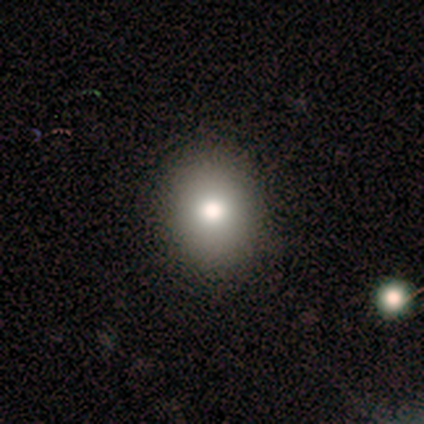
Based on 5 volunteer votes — Volunteers were most divided on "how rounded": round: 75%, in between: 25%, cigar-shaped: 0%. More confident: merging — none (100%); smooth or featured — smooth (80%).